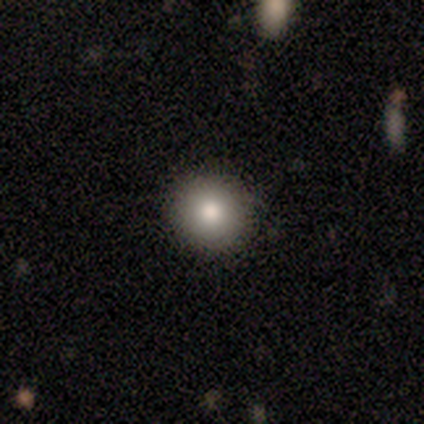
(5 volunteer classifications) Overall: smooth (60%; featured or disk 20%). How rounded: round (100%). Merging: none (100%).